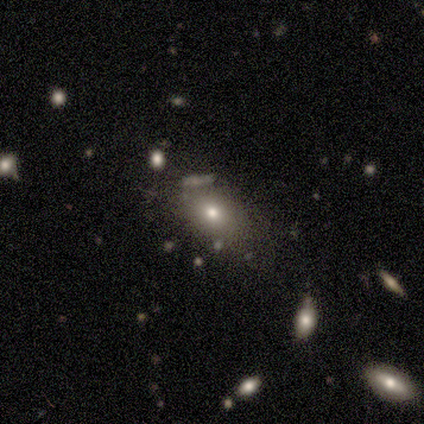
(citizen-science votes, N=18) smooth-or-featured: smooth: 78% | star or artifact: 17% | featured or disk: 6%
  how-rounded: round: 43% (tied) | in between: 43% (tied) | cigar-shaped: 14%
  merging: none: 60% | minor disturbance: 27% | merger: 13% | major disturbance: 0%